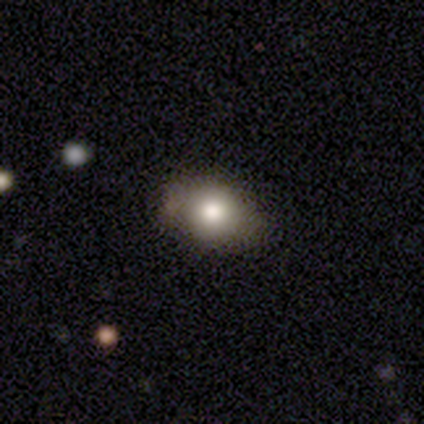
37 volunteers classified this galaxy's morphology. Q: Smooth or featured?
A: smooth (78%); runner-up: featured or disk (22%)
Q: How rounded?
A: in between (79%); runner-up: round (21%)
Q: Merging?
A: none (73%); runner-up: minor disturbance (22%)